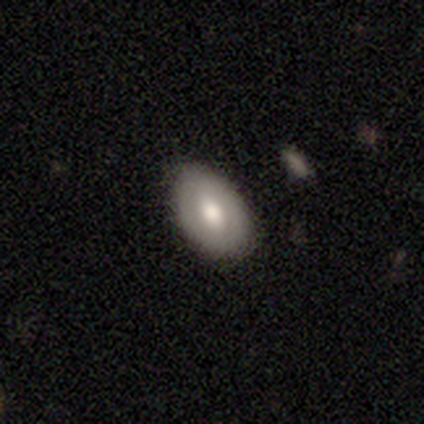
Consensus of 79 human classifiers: Smooth or featured? smooth (59%)
How rounded? in between (87%)
Merging? none (52%)